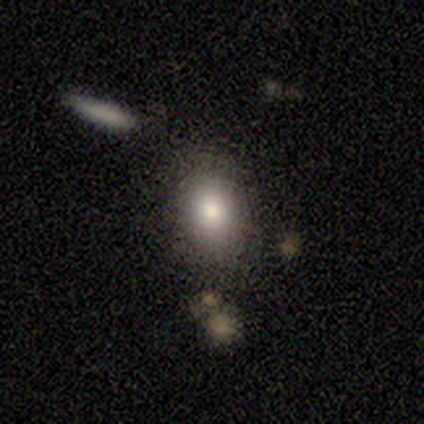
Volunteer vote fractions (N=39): This appears to be a smooth galaxy with no disk features (82%) that is in between round and cigar-shaped (75%). Merging: none (56%).